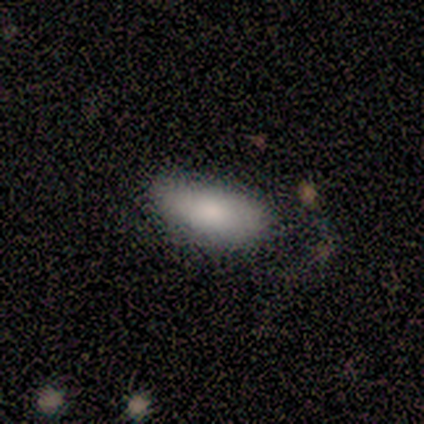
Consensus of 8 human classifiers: Smooth or featured? smooth (100%)
How rounded? in between (100%)
Merging? none (62%)